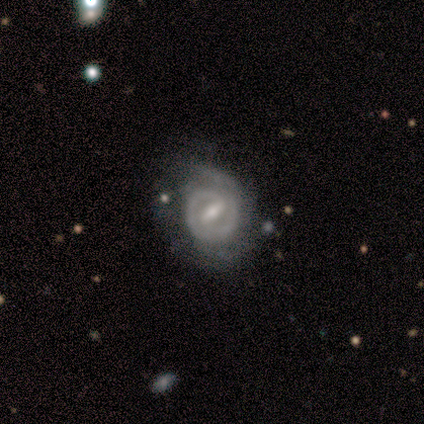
Smooth or featured?
  - featured or disk: 92% *
  - smooth: 8%
  - star or artifact: 0%
Edge-on disk?
  - no: 100% *
  - yes: 0%
Bar?
  - strong: 67% *
  - weak: 33%
  - no: 0%
Spiral arms?
  - yes: 100% *
  - no: 0%
Spiral winding?
  - tight: 67% *
  - medium: 33%
  - loose: 0%
Spiral arm count?
  - 2: 50% *
  - 1: 42%
  - can't tell: 8%
  - 3: 0%
  - 4: 0%
  - more than 4: 0%
Bulge size?
  - small: 58% *
  - moderate: 33%
  - none: 8%
  - dominant: 0%
  - large: 0%
Merging?
  - none: 62% *
  - minor disturbance: 31%
  - major disturbance: 8%
  - merger: 0%